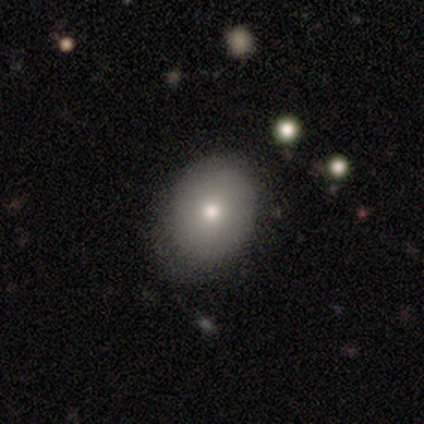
smooth 100%, featured or disk 0%, star or artifact 0%. Down the decision tree: how rounded — in between (83%); merging — none (100%).